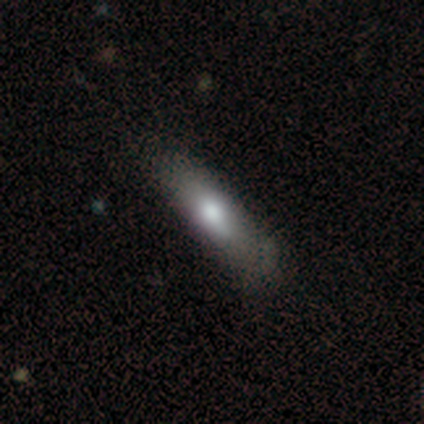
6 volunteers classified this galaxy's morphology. A smooth galaxy with no disk features (100%) that is cigar-shaped (100%). Merging: none (83%).